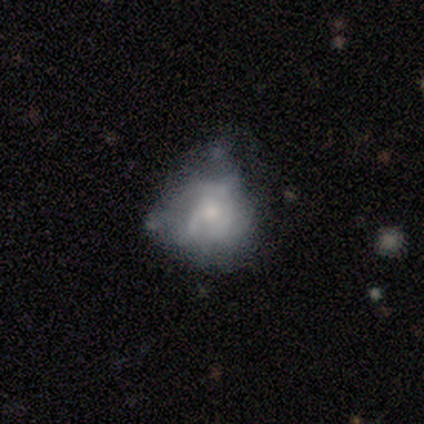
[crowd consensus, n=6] This is possibly a smooth galaxy (50%). How rounded: clearly in between (100%). Merging: likely none (60%).